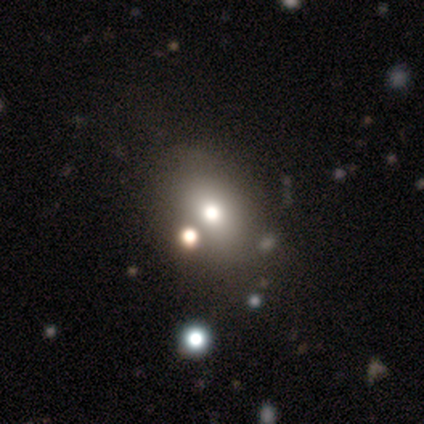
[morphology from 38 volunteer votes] smooth-or-featured: smooth: 66% | featured or disk: 18% | star or artifact: 16%
  how-rounded: in between: 72% | round: 28% | cigar-shaped: 0%
  merging: none: 53% | merger: 16% | minor disturbance: 12% | major disturbance: 9%